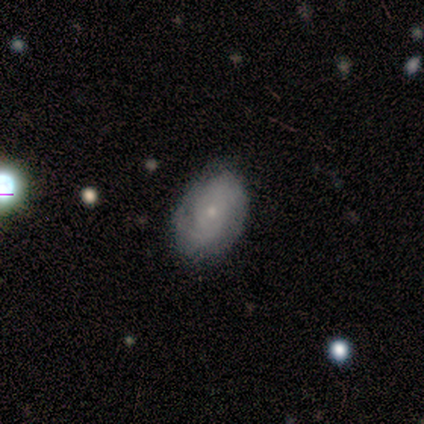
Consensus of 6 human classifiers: smooth_or_featured: smooth (p=0.50) [alt: featured or disk p=0.33]
how_rounded: in between (p=1.00)
merging: none (p=1.00)